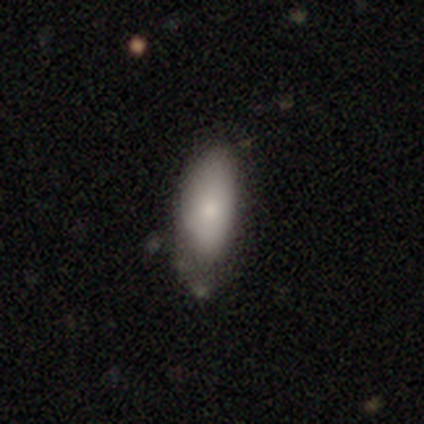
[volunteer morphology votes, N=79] Smooth or featured? 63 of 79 (80%) said smooth. How rounded? 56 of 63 (89%) said in between. Merging? 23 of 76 (30%) said none.